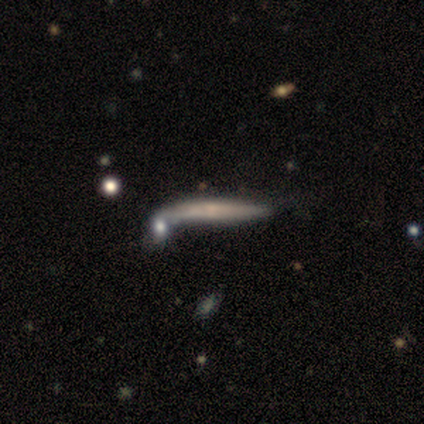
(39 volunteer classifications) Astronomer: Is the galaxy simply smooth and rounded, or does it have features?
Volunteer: featured or disk — 67%.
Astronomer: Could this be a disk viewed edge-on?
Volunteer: yes — 81%.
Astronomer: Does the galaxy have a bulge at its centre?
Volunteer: none — 62%.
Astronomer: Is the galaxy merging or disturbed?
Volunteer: none — 31% (runner-up: merger, 26%).